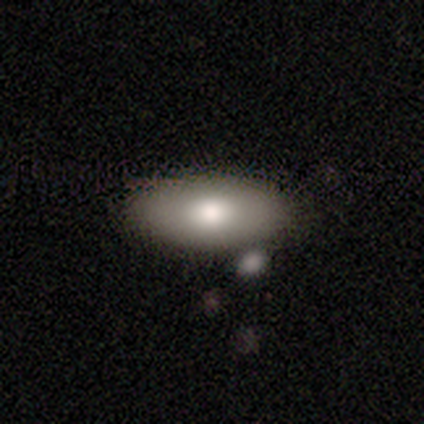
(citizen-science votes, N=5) smooth-or-featured: smooth: 100% | featured or disk: 0% | star or artifact: 0%
  how-rounded: in between: 100% | round: 0% | cigar-shaped: 0%
  merging: none: 80% | minor disturbance: 20% | major disturbance: 0% | merger: 0%